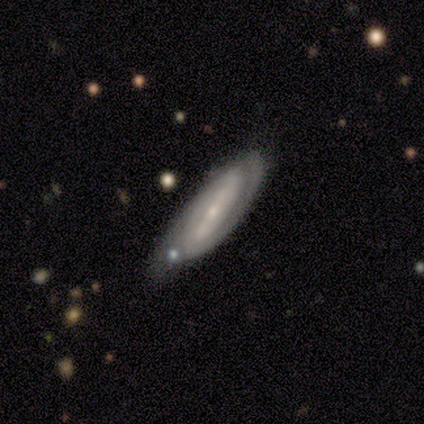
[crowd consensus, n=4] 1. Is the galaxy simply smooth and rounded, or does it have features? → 50% smooth (tied), 50% featured or disk (tied), 0% star or artifact.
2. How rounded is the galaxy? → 100% in between, 0% round, 0% cigar-shaped.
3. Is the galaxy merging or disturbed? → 75% minor disturbance, 25% none, 0% major disturbance, 0% merger.